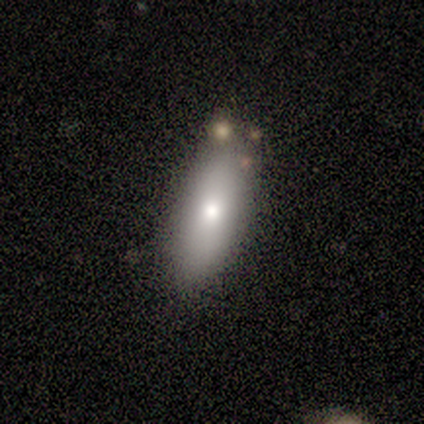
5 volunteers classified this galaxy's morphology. Smooth or featured: smooth — 100%
How rounded: in between — 80% (cigar-shaped — 20%)
Merging: none — 100%